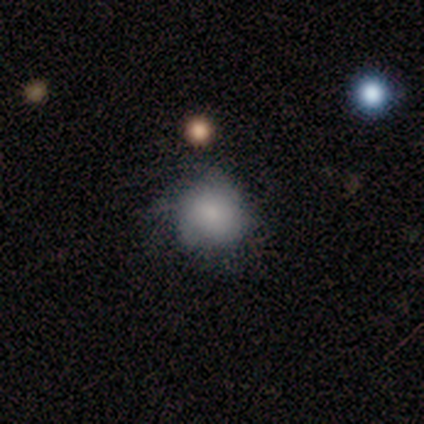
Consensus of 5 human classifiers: smooth-or-featured: smooth: 60% | featured or disk: 20% | star or artifact: 20%
  how-rounded: round: 100% | in between: 0% | cigar-shaped: 0%
  merging: none: 100% | minor disturbance: 0% | major disturbance: 0% | merger: 0%